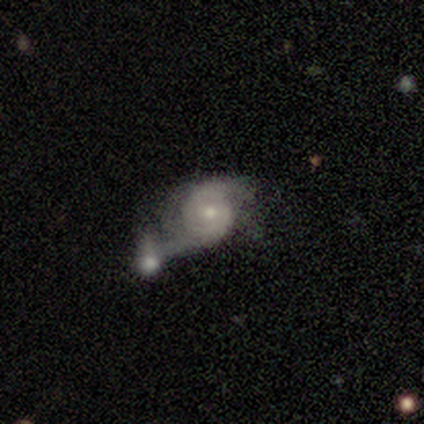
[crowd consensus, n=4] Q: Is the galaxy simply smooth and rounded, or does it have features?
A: featured or disk — 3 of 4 (75%).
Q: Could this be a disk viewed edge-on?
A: no — 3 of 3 (100%).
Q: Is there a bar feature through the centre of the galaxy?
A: no — 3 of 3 (100%).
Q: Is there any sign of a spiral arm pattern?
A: yes — 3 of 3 (100%).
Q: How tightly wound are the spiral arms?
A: medium — 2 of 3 (67%).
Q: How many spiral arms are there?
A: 2 — 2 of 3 (67%).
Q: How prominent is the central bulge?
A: moderate — 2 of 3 (67%).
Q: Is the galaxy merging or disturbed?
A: merger — 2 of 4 (50%).